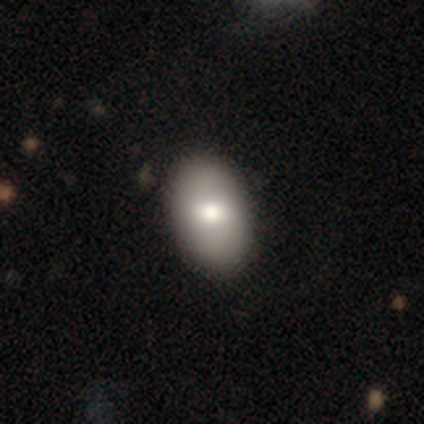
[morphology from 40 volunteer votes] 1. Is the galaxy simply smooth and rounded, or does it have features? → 80% smooth, 20% featured or disk, 0% star or artifact.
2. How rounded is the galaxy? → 94% in between, 6% round, 0% cigar-shaped.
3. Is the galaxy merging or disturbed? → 68% none, 2% minor disturbance, 0% major disturbance, 0% merger.